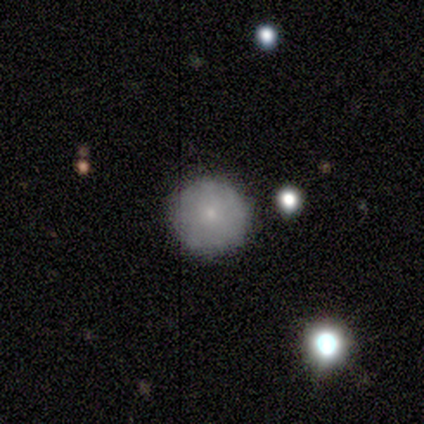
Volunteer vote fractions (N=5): This appears to be a smooth galaxy with no disk features (80%) that is round (100%). Merging: none (100%).